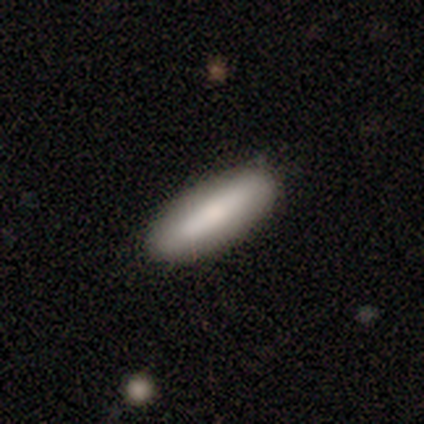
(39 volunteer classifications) smooth-or-featured: smooth: 85% | featured or disk: 8% | star or artifact: 8%
  how-rounded: cigar-shaped: 67% | in between: 33% | round: 0%
  merging: none: 92% | minor disturbance: 6% | merger: 3% | major disturbance: 0%